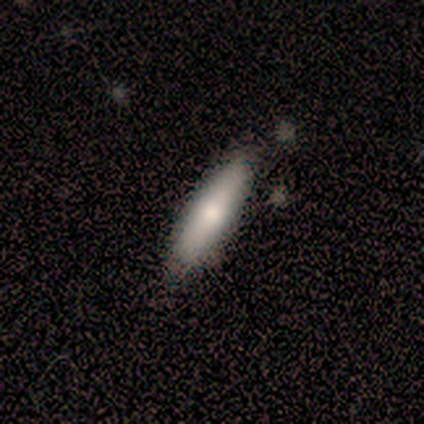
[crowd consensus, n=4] Volunteers were most divided on "merging" (2-way tie): none: 50%, minor disturbance: 50%, major disturbance: 0%, merger: 0%. More confident: how rounded — cigar-shaped (100%); smooth or featured — smooth (75%).